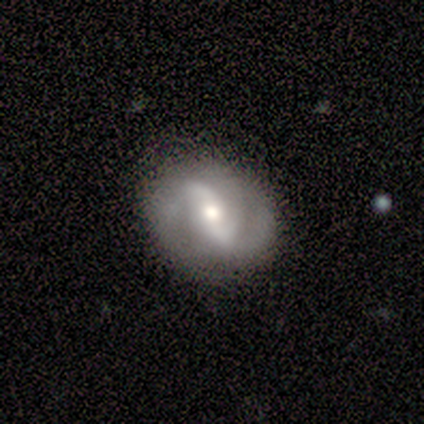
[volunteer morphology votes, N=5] Smooth or featured?
  - featured or disk: 80% *
  - smooth: 20%
  - star or artifact: 0%
Edge-on disk?
  - no: 100% *
  - yes: 0%
Bar?
  - weak: 75% *
  - strong: 25%
  - no: 0%
Spiral arms?
  - yes: 100% *
  - no: 0%
Spiral winding?
  - loose: 75% *
  - medium: 25%
  - tight: 0%
Spiral arm count?
  - 2: 100% *
  - 1: 0%
  - 3: 0%
  - 4: 0%
  - more than 4: 0%
  - can't tell: 0%
Bulge size?
  - moderate: 50% * (tied)
  - small: 50% * (tied)
  - dominant: 0%
  - large: 0%
  - none: 0%
Merging?
  - none: 40% * (tied)
  - minor disturbance: 40% * (tied)
  - major disturbance: 20%
  - merger: 0%